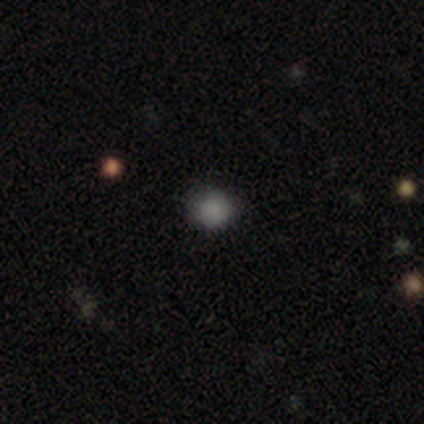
smooth 100%, featured or disk 0%, star or artifact 0%. Down the decision tree: how rounded — round (75%); merging — none (75%).